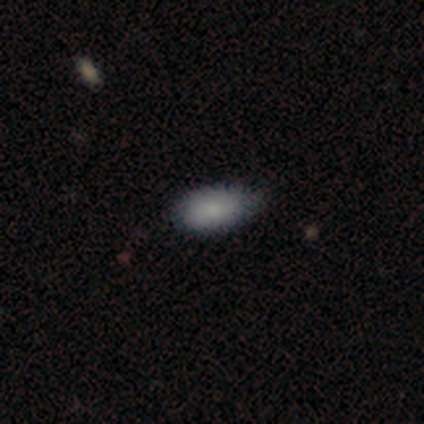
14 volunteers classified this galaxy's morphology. smooth_or_featured: smooth (p=0.71) [alt: featured or disk p=0.21]
how_rounded: in between (p=1.00)
merging: none (p=0.85) [alt: minor disturbance p=0.15]